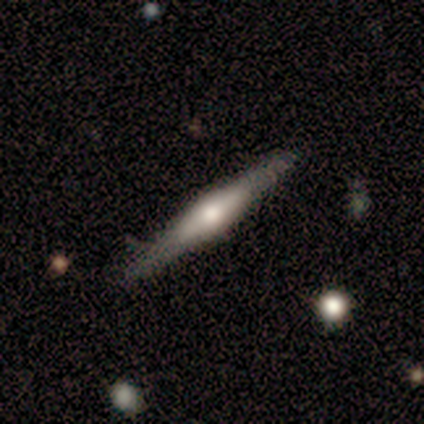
Smooth or featured? smooth (50%)
How rounded? cigar-shaped (100%)
Merging? none (91%)